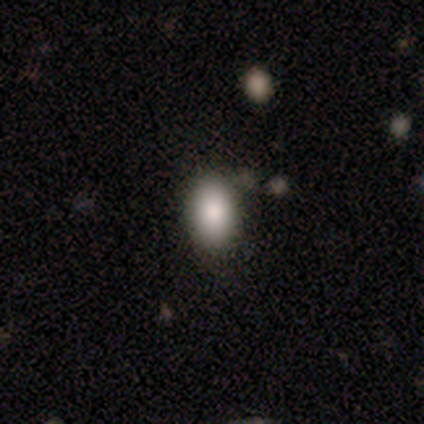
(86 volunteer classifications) smooth_or_featured: smooth (p=0.91) [alt: featured or disk p=0.06]
how_rounded: in between (p=0.85) [alt: round p=0.14]
merging: none (p=0.72) [alt: minor disturbance p=0.17]